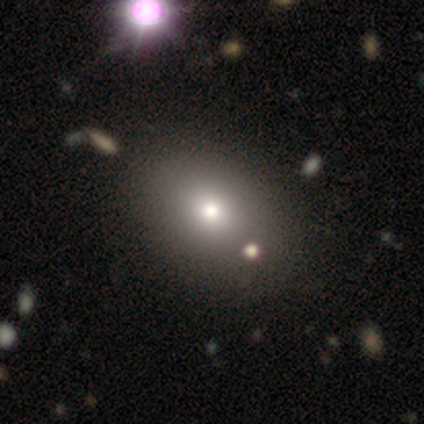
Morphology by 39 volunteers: smooth_or_featured: smooth (p=0.72) [alt: star or artifact p=0.15]
how_rounded: in between (p=0.64) [alt: round p=0.36]
merging: none (p=0.48) [alt: merger p=0.18]